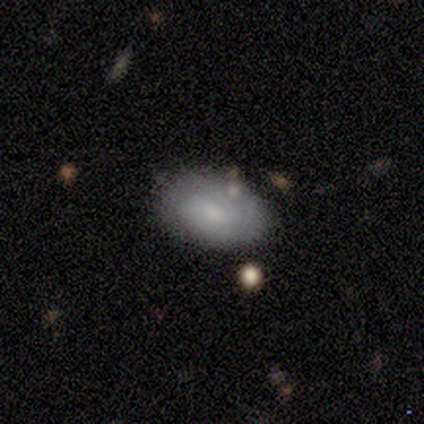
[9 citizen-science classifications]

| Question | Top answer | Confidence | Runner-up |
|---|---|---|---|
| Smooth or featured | smooth | 78% | featured or disk (22%) |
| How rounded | in between | 86% | round (14%) |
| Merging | none | 89% | merger (11%) |